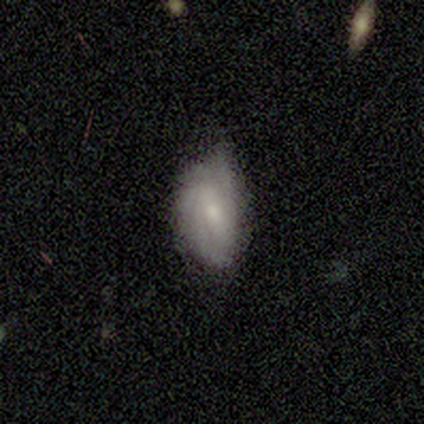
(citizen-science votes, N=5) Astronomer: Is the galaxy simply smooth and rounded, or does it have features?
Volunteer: smooth — 80%.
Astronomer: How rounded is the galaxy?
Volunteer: in between — 100%.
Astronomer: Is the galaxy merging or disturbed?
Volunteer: minor disturbance — 60% (runner-up: none, 40%).